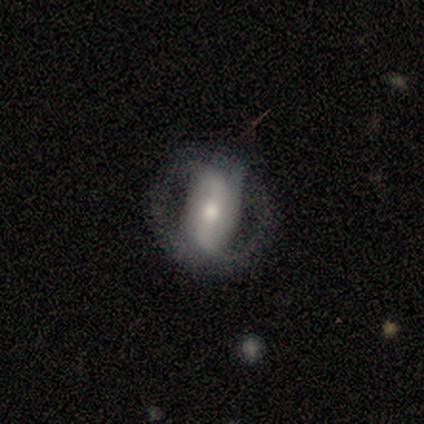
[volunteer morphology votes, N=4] Smooth or featured: smooth — 50% (tied with featured or disk — 50%)
How rounded: round — 50% (tied with in between — 50%)
Merging: none — 75% (minor disturbance — 25%)